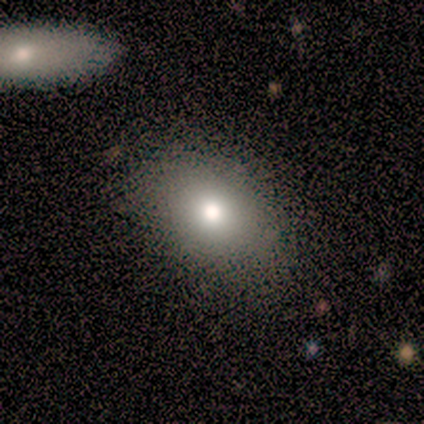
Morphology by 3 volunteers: type=smooth (67%); roundness=in between (100%); merging=none (100%).